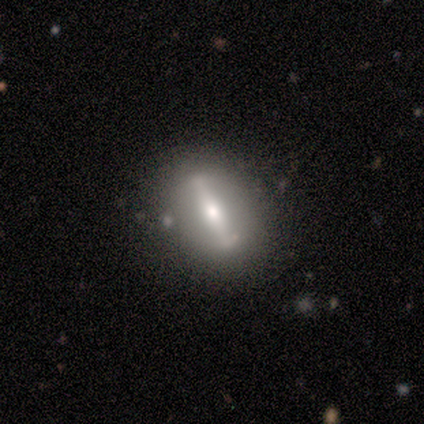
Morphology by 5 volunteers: Smooth or featured?
  - smooth: 60% *
  - featured or disk: 40%
  - star or artifact: 0%
How rounded?
  - in between: 67% *
  - cigar-shaped: 33%
  - round: 0%
Merging?
  - none: 80% *
  - minor disturbance: 20%
  - major disturbance: 0%
  - merger: 0%